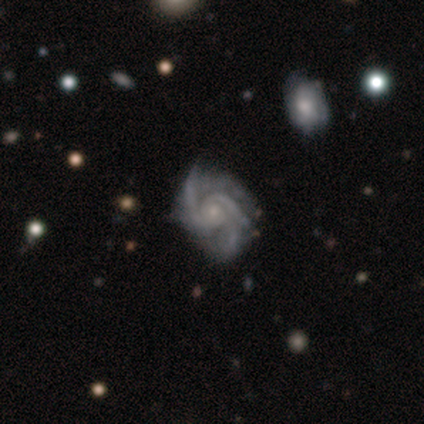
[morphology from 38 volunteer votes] smooth-or-featured: featured or disk: 97% | star or artifact: 3% | smooth: 0%
  disk-edge-on: no: 100% | yes: 0%
    bar: no: 73% | strong: 14% | weak: 14%
    has-spiral-arms: yes: 100% | no: 0%
      spiral-winding: tight: 49% | medium: 46% | loose: 5%
      spiral-arm-count: 3: 43% | 2: 32% | 4: 16% | can't tell: 5% | more than 4: 3% | 1: 0%
    bulge-size: small: 76% | moderate: 22% | none: 3% | dominant: 0% | large: 0%
  merging: none: 81% | minor disturbance: 14% | major disturbance: 5% | merger: 0%